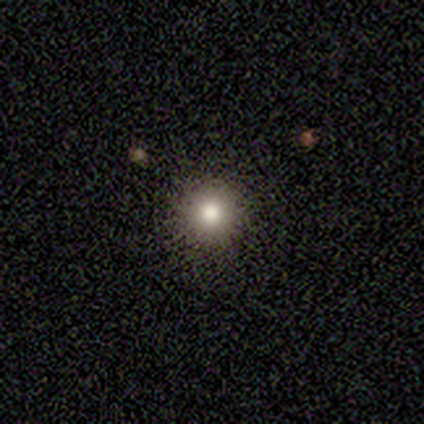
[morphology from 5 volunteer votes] Smooth or featured? smooth (60%)
How rounded? round (100%)
Merging? none (67%)